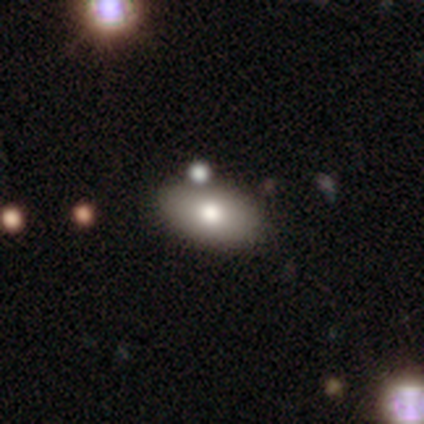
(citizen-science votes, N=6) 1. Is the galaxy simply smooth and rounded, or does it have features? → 83% smooth, 17% star or artifact, 0% featured or disk.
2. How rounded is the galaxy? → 80% in between, 20% cigar-shaped, 0% round.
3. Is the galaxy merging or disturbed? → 60% none, 20% minor disturbance, 20% merger, 0% major disturbance.